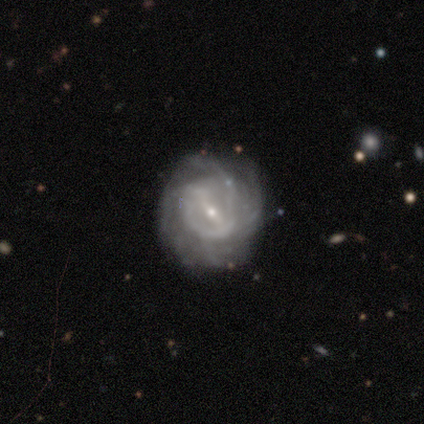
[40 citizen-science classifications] A featured or disk galaxy (88%) with a strong bar (44%, tied with weak), tight (45%) spiral arms (85%) and a small central bulge (85%). Merging: none (62%).